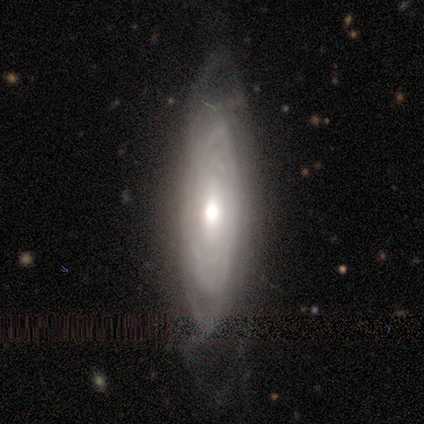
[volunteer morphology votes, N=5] A featured or disk galaxy (100%) with no bar (100%), tight (75%) spiral arms (100%) and a moderate central bulge (75%).

Vote fractions:
- Smooth or featured? featured or disk: 100% / smooth: 0% / star or artifact: 0%
- Edge-on disk? no: 80% / yes: 20%
- Bar? no: 100% / strong: 0% / weak: 0%
- Spiral arms? yes: 100% / no: 0%
- Spiral winding? tight: 75% / medium: 25% / loose: 0%
- Spiral arm count? can't tell: 75% / 2: 25% / 1: 0% / 3: 0% / 4: 0% / more than 4: 0%
- Bulge size? moderate: 75% / large: 25% / dominant: 0% / small: 0% / none: 0%
- Merging? none: 40% (tied) / major disturbance: 40% (tied) / minor disturbance: 20% / merger: 0%